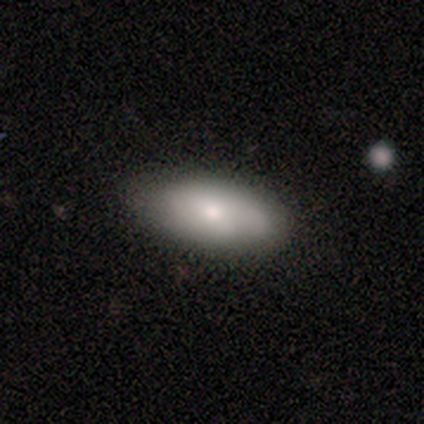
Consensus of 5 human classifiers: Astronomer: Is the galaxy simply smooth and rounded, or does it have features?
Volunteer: smooth — 100%.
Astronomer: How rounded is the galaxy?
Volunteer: in between — 100%.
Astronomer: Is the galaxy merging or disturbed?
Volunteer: none — 100%.